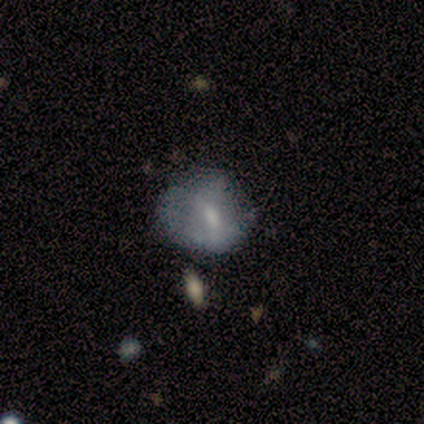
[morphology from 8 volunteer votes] smooth-or-featured: smooth: 62% | featured or disk: 38% | star or artifact: 0%
  how-rounded: round: 80% | in between: 20% | cigar-shaped: 0%
  merging: none: 75% | minor disturbance: 25% | major disturbance: 0% | merger: 0%